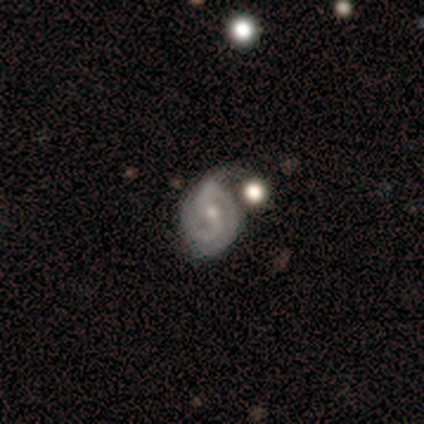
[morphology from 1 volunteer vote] type=featured or disk (100%); edge-on=no (100%); bar=weak (100%); spiral arms=yes (100%); winding=loose (100%); arm count=can't tell (100%); bulge=moderate (100%); merging=none (100%).